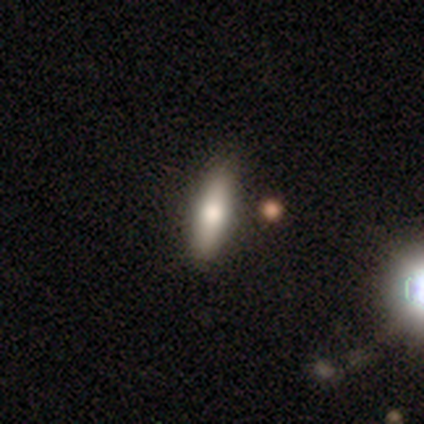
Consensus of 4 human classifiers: Volunteers were most divided on "smooth or featured": smooth: 50%, featured or disk: 25%, star or artifact: 25%. More confident: how rounded — cigar-shaped (100%); merging — none (67%).